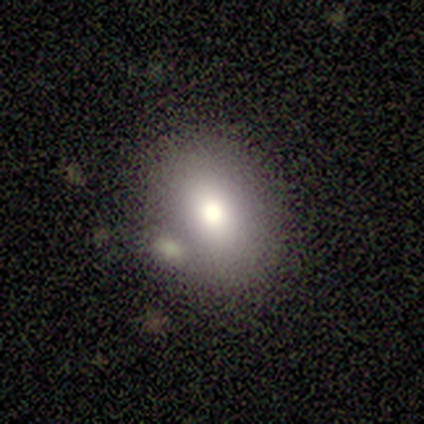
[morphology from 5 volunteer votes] A smooth galaxy with no disk features (40%, tied with star or artifact) that is in between round and cigar-shaped (100%).

Vote fractions:
- Smooth or featured? smooth: 40% (tied) / star or artifact: 40% (tied) / featured or disk: 20%
- How rounded? in between: 100% / round: 0% / cigar-shaped: 0%
- Merging? minor disturbance: 67% / none: 33% / major disturbance: 0% / merger: 0%